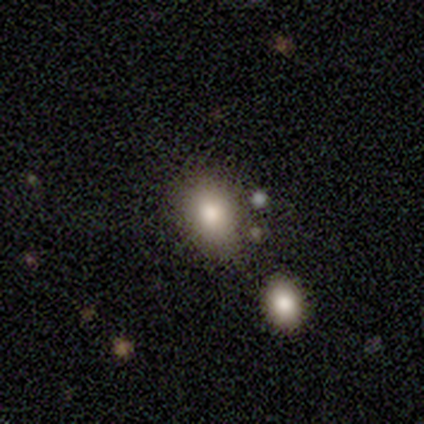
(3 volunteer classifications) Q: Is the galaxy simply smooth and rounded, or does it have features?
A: smooth — 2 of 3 (67%).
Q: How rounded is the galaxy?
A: round — 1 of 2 (50%, tied with in between).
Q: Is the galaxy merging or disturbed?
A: none — 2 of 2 (100%).